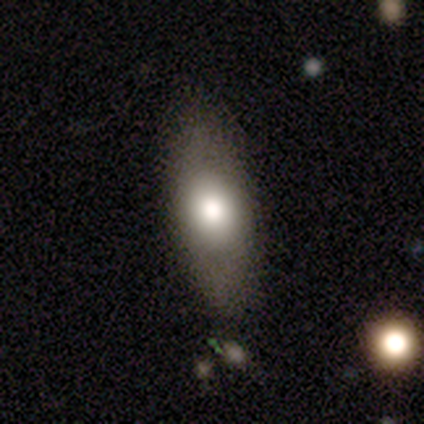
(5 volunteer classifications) smooth 100%, featured or disk 0%, star or artifact 0%. Down the decision tree: how rounded — in between (100%); merging — none (100%).